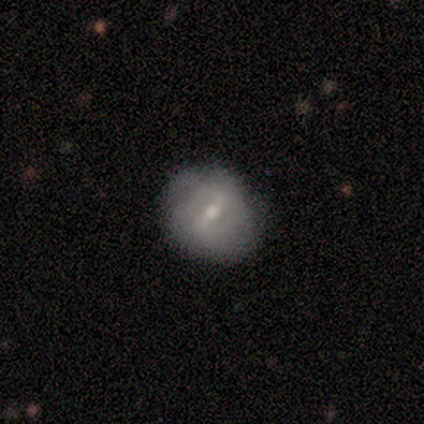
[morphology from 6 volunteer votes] smooth-or-featured: featured or disk: 100% | smooth: 0% | star or artifact: 0%
  disk-edge-on: no: 100% | yes: 0%
    bar: strong: 67% | weak: 33% | no: 0%
    has-spiral-arms: yes: 50% (tied) | no: 50% (tied)
      spiral-winding: tight: 100% | medium: 0% | loose: 0%
      spiral-arm-count: 2: 100% | 1: 0% | 3: 0% | 4: 0% | more than 4: 0% | can't tell: 0%
    bulge-size: small: 67% | moderate: 33% | dominant: 0% | large: 0% | none: 0%
  merging: none: 67% | minor disturbance: 33% | major disturbance: 0% | merger: 0%